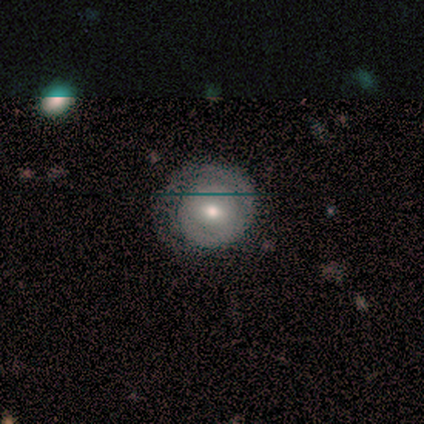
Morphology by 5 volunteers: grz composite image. It shows a featured or disk galaxy (100%) with a weak bar (60%), 1 (80%) tight (100%) spiral arms (100%) and a moderate central bulge (80%). Merging: none (80%).